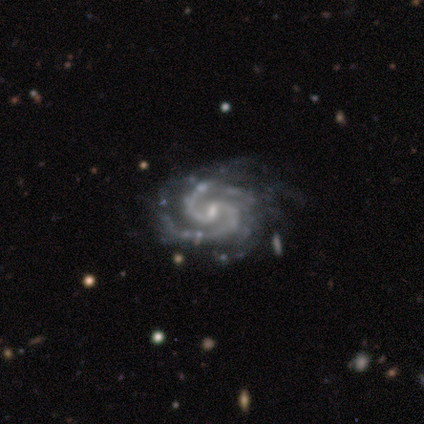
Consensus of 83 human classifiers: Overall: featured or disk (96%). Edge-on disk: no (99%). Bar: weak (65%). Spiral arms: yes (99%). Spiral arm count: 2 (65%). Spiral winding: tight (64%; medium 36%). Bulge size: small (72%). Merging: none (74%).